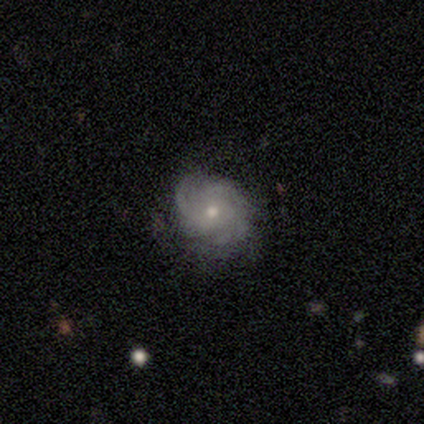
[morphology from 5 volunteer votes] featured or disk 60%, smooth 40%, star or artifact 0%. Down the decision tree: edge-on disk — no (100%); bar — no (67%); spiral arms — yes (100%); spiral arm count — 3 (33%, tied with more than 4 and can't tell); spiral winding — tight (100%); bulge size — moderate (67%); merging — none (60%).